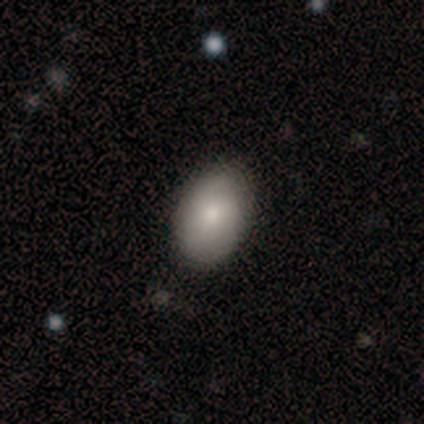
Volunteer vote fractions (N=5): smooth 80%, featured or disk 20%, star or artifact 0%. Down the decision tree: how rounded — in between (100%); merging — none (80%).